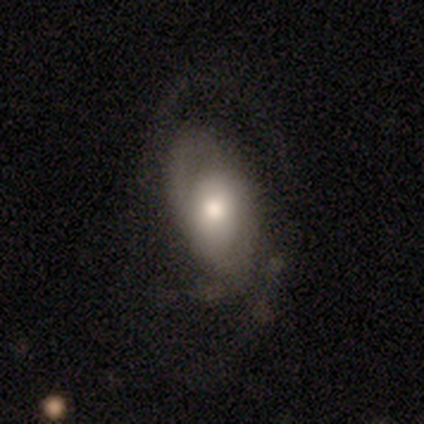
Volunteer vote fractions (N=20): smooth-or-featured: featured or disk: 65% | smooth: 35% | star or artifact: 0%
  disk-edge-on: no: 100% | yes: 0%
    bar: no: 85% | strong: 8% | weak: 8%
    has-spiral-arms: yes: 77% | no: 23%
      spiral-winding: medium: 40% (tied) | loose: 40% (tied) | tight: 20%
      spiral-arm-count: can't tell: 50% | 2: 30% | 1: 10% | 4: 10% | 3: 0% | more than 4: 0%
    bulge-size: moderate: 69% | large: 23% | dominant: 8% | small: 0% | none: 0%
  merging: none: 40% | major disturbance: 35% | minor disturbance: 25% | merger: 0%